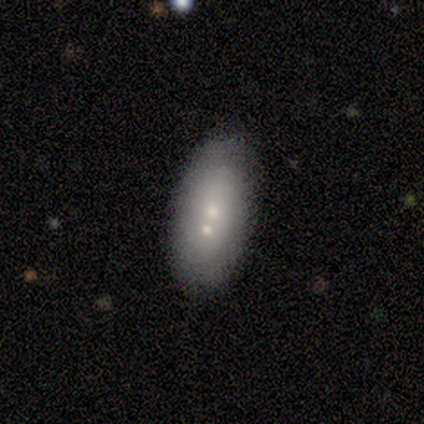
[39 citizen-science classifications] Volunteers were most divided on "merging": none: 39%, merger: 37%, minor disturbance: 24%, major disturbance: 0%. More confident: how rounded — in between (96%); smooth or featured — smooth (59%).